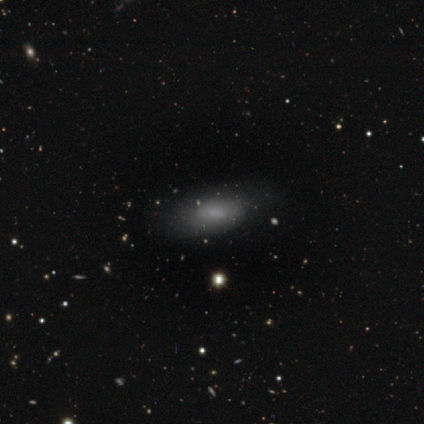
Smooth or featured: smooth — 80% (featured or disk — 20%)
How rounded: in between — 100%
Merging: none — 80% (minor disturbance — 20%)